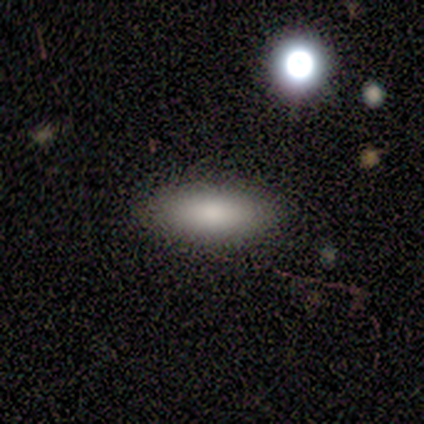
This is clearly a smooth galaxy (100%). How rounded: likely in between (67%). Merging: clearly none (83%).